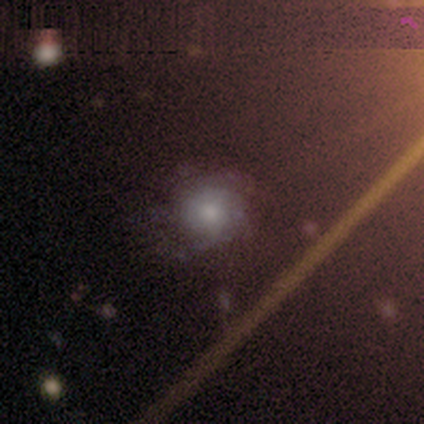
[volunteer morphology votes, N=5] A smooth galaxy with no disk features (60%) that is round (100%).

Vote fractions:
- Smooth or featured? smooth: 60% / featured or disk: 40% / star or artifact: 0%
- How rounded? round: 100% / in between: 0% / cigar-shaped: 0%
- Merging? none: 100% / minor disturbance: 0% / major disturbance: 0% / merger: 0%